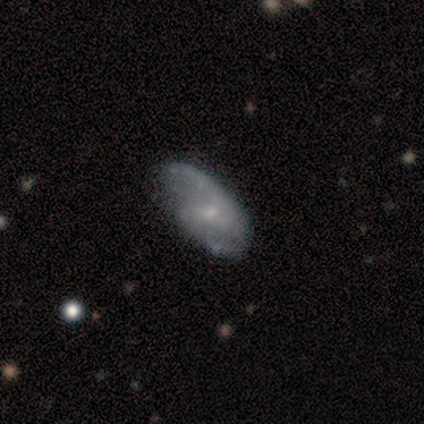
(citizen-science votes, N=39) Smooth or featured?
  - featured or disk: 82% *
  - smooth: 15%
  - star or artifact: 3%
Edge-on disk?
  - no: 100% *
  - yes: 0%
Bar?
  - no: 81% *
  - weak: 16%
  - strong: 3%
Spiral arms?
  - yes: 59% *
  - no: 41%
Spiral winding?
  - loose: 42% *
  - tight: 37%
  - medium: 21%
Spiral arm count?
  - 2: 47% *
  - 1: 26%
  - can't tell: 26%
  - 3: 0%
  - 4: 0%
  - more than 4: 0%
Bulge size?
  - small: 78% *
  - moderate: 19%
  - none: 3%
  - dominant: 0%
  - large: 0%
Merging?
  - none: 53% *
  - minor disturbance: 16%
  - merger: 5%
  - major disturbance: 0%